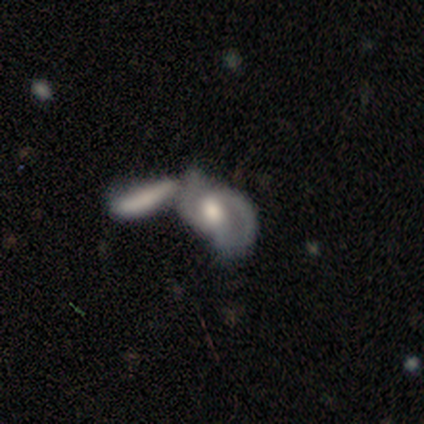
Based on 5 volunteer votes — Q: Smooth or featured?
A: smooth (40%); tied with: featured or disk (40%)
Q: How rounded?
A: in between (100%)
Q: Merging?
A: merger (75%); runner-up: major disturbance (25%)